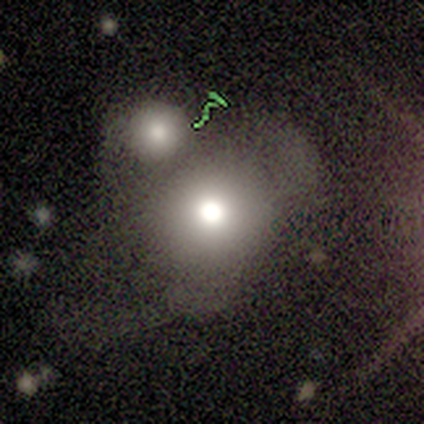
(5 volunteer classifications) A smooth galaxy with no disk features (100%) that is round (80%).

Vote fractions:
- Smooth or featured? smooth: 100% / featured or disk: 0% / star or artifact: 0%
- How rounded? round: 80% / cigar-shaped: 20% / in between: 0%
- Merging? merger: 80% / minor disturbance: 20% / none: 0% / major disturbance: 0%